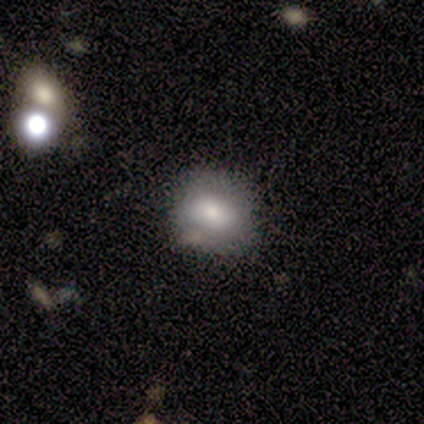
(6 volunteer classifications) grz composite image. It shows a featured or disk galaxy (50%) with no bar (67%), no spiral arms (100%) and a moderate central bulge (67%). Merging: minor disturbance (60%).